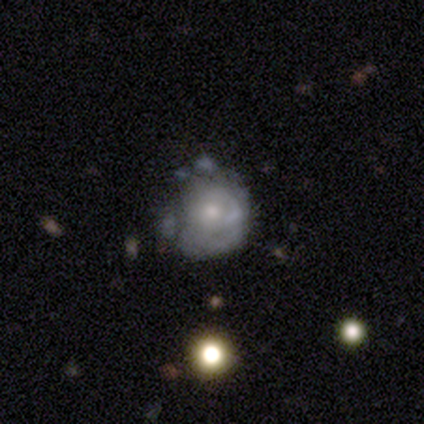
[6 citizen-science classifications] Q: Smooth or featured?
A: featured or disk (67%); runner-up: smooth (33%)
Q: Edge-on disk?
A: no (100%)
Q: Bar?
A: no (100%)
Q: Spiral arms?
A: yes (75%); runner-up: no (25%)
Q: Spiral winding?
A: tight (100%)
Q: Spiral arm count?
A: can't tell (100%)
Q: Bulge size?
A: small (75%); runner-up: moderate (25%)
Q: Merging?
A: minor disturbance (67%); runner-up: major disturbance (33%)